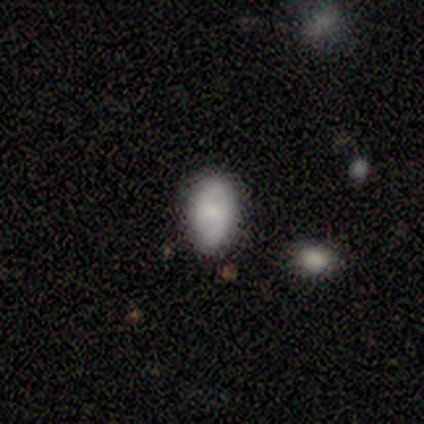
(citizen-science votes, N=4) A smooth galaxy with no disk features (100%) that is in between round and cigar-shaped (100%).

Vote fractions:
- Smooth or featured? smooth: 100% / featured or disk: 0% / star or artifact: 0%
- How rounded? in between: 100% / round: 0% / cigar-shaped: 0%
- Merging? none: 100% / minor disturbance: 0% / major disturbance: 0% / merger: 0%